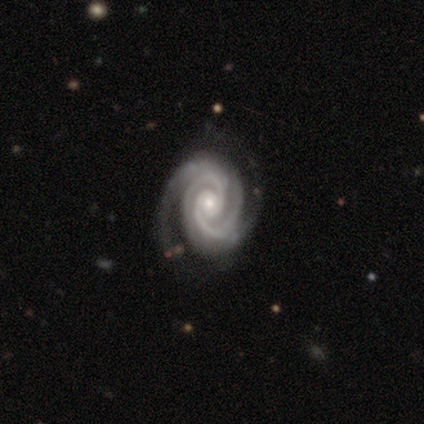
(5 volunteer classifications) featured or disk 100%, smooth 0%, star or artifact 0%. Down the decision tree: edge-on disk — no (100%); bar — no (100%); spiral arms — yes (100%); spiral arm count — 2 (40%); spiral winding — tight (100%); bulge size — small (80%); merging — none (100%).